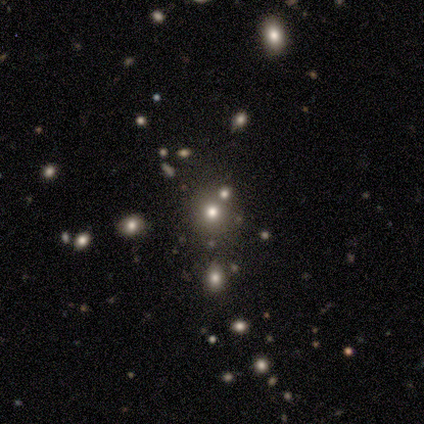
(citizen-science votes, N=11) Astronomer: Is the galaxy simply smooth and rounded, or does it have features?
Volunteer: smooth — 64%.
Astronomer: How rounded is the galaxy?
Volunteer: round — 100%.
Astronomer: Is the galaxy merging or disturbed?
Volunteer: none — 86%.